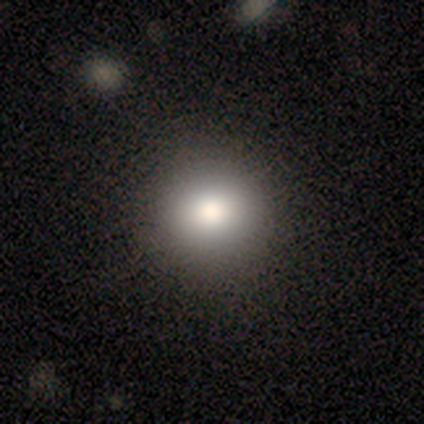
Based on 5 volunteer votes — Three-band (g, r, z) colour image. It shows a smooth galaxy with no disk features (100%) that is round (100%). Merging: none (100%).